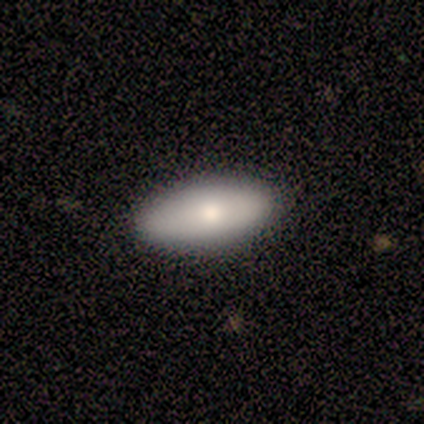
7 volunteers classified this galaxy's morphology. A smooth galaxy with no disk features (71%) that is in between round and cigar-shaped (100%).

Vote fractions:
- Smooth or featured? smooth: 71% / featured or disk: 29% / star or artifact: 0%
- How rounded? in between: 100% / round: 0% / cigar-shaped: 0%
- Merging? none: 100% / minor disturbance: 0% / major disturbance: 0% / merger: 0%